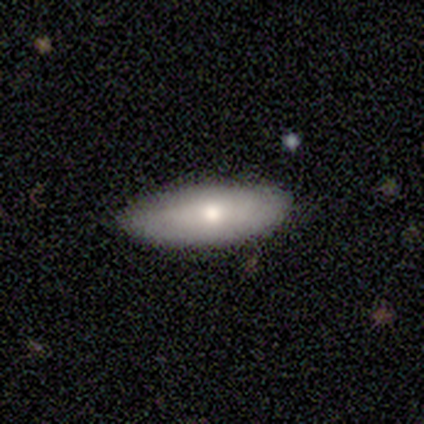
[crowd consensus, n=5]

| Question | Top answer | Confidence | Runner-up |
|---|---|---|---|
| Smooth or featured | smooth | 100% | — |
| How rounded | in between | 80% | cigar-shaped (20%) |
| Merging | none | 60% | minor disturbance (40%) |